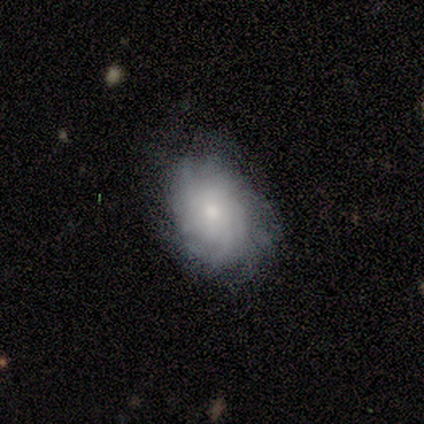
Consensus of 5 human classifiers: Smooth or featured: smooth — 80% (featured or disk — 20%)
How rounded: in between — 50% (round — 25%)
Merging: none — 80% (minor disturbance — 20%)